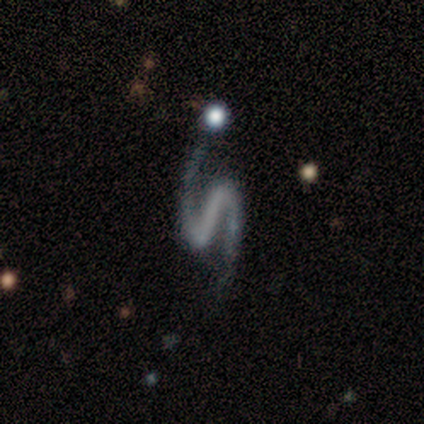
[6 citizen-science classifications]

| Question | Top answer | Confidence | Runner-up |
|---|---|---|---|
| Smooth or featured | featured or disk | 100% | — |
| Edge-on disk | no | 100% | — |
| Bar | strong | 67% | weak (17%) |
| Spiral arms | yes | 100% | — |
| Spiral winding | loose | 50% | medium (33%) |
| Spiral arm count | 2 | 100% | — |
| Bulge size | none | 83% | small (17%) |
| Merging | none | 83% | minor disturbance (17%) |